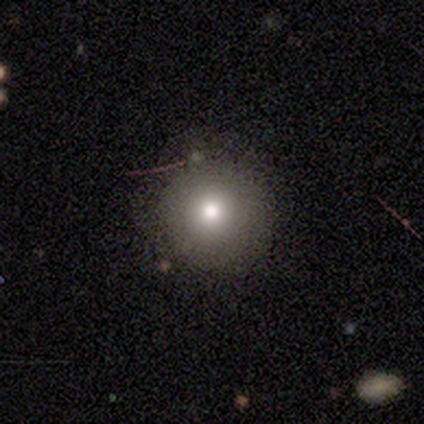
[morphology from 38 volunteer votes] This appears to be a smooth galaxy with no disk features (63%) that is round (100%). Merging: none (90%).